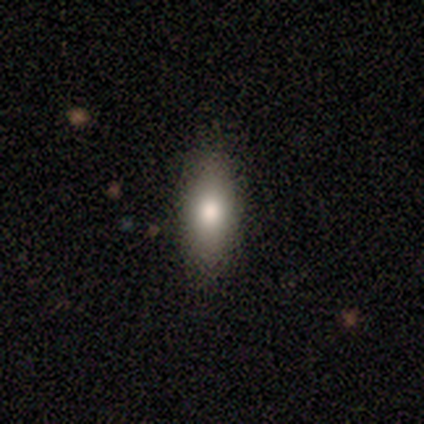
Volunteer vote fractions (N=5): Morphology: type=smooth (100%); roundness=in between (80%); merging=none (80%).